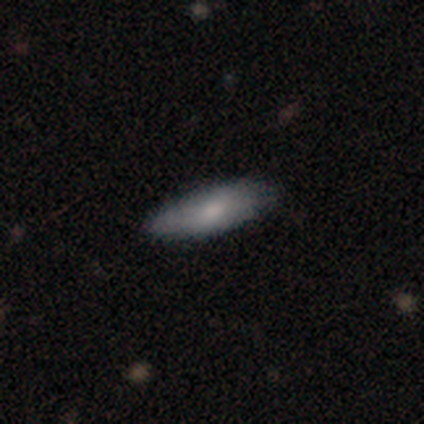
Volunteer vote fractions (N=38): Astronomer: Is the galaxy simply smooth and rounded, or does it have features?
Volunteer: smooth — 76%.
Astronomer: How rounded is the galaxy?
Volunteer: in between — 59% (runner-up: cigar-shaped, 41%).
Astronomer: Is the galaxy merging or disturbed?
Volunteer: none — 83%.